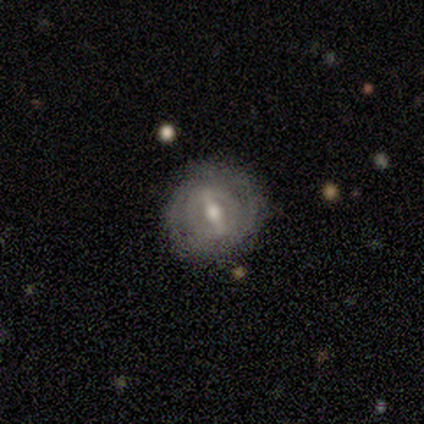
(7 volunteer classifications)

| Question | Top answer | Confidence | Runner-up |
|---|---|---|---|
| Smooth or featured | featured or disk | 86% | smooth (14%) |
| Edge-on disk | no | 100% | — |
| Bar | strong | 67% | weak (33%) |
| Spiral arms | yes | 67% | no (33%) |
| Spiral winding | tight | 75% | loose (25%) |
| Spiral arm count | can't tell | 50% | 2 (25%) |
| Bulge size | moderate | 50% | small (33%) |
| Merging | none | 100% | — |